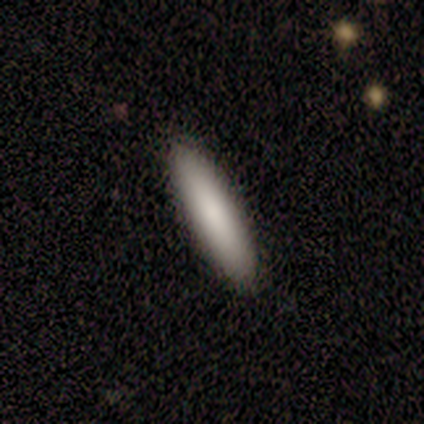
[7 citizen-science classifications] A smooth galaxy with no disk features (100%) that is cigar-shaped (71%).

Vote fractions:
- Smooth or featured? smooth: 100% / featured or disk: 0% / star or artifact: 0%
- How rounded? cigar-shaped: 71% / in between: 29% / round: 0%
- Merging? none: 100% / minor disturbance: 0% / major disturbance: 0% / merger: 0%